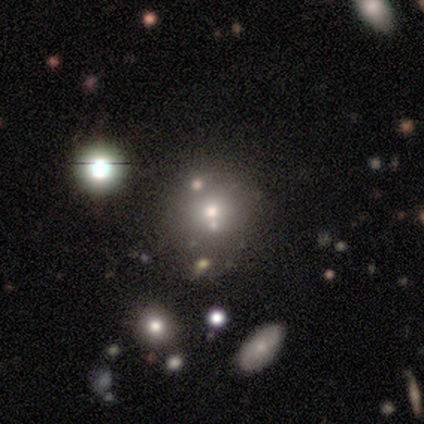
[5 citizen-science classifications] featured or disk 80%, star or artifact 20%, smooth 0%. Down the decision tree: edge-on disk — no (75%); bar — no (67%); spiral arms — no (67%); bulge size — dominant (33%, tied with large and moderate); merging — merger (50%).